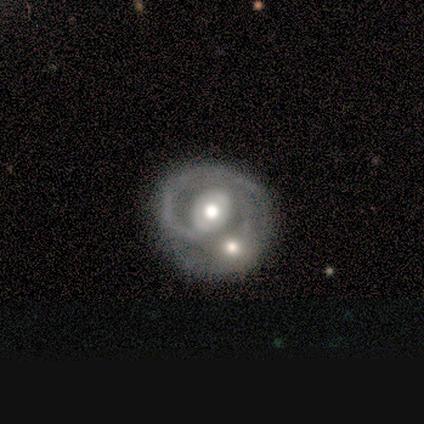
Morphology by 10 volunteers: Smooth or featured?
  - featured or disk: 100% *
  - smooth: 0%
  - star or artifact: 0%
Edge-on disk?
  - no: 100% *
  - yes: 0%
Bar?
  - no: 60% *
  - weak: 40%
  - strong: 0%
Spiral arms?
  - yes: 50% * (tied)
  - no: 50% * (tied)
Spiral winding?
  - medium: 40% * (tied)
  - loose: 40% * (tied)
  - tight: 20%
Spiral arm count?
  - can't tell: 60% *
  - 3: 40%
  - 1: 0%
  - 2: 0%
  - 4: 0%
  - more than 4: 0%
Bulge size?
  - moderate: 80% *
  - large: 20%
  - dominant: 0%
  - small: 0%
  - none: 0%
Merging?
  - merger: 80% *
  - none: 10%
  - major disturbance: 10%
  - minor disturbance: 0%